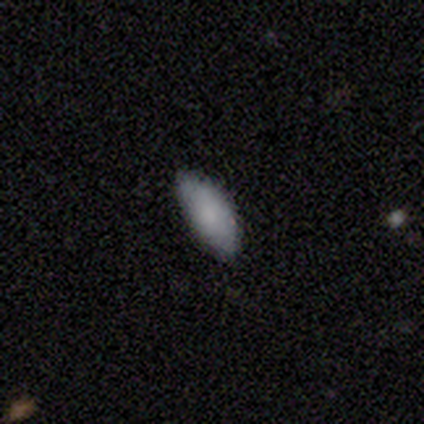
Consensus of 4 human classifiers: smooth-or-featured: smooth: 100% | featured or disk: 0% | star or artifact: 0%
  how-rounded: in between: 75% | cigar-shaped: 25% | round: 0%
  merging: none: 75% | minor disturbance: 25% | major disturbance: 0% | merger: 0%